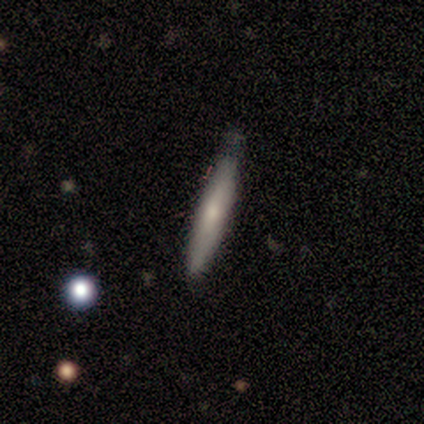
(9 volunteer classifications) Q: Smooth or featured?
A: smooth (56%); runner-up: featured or disk (33%)
Q: How rounded?
A: cigar-shaped (100%)
Q: Merging?
A: minor disturbance (62%); runner-up: none (38%)